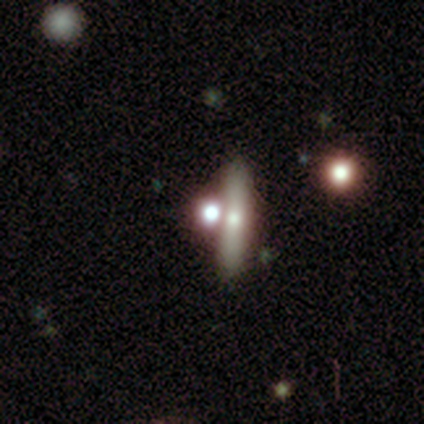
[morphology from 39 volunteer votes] Volunteers were most divided on "smooth or featured": smooth: 44%, featured or disk: 41%, star or artifact: 15%. More confident: how rounded — cigar-shaped (65%); merging — none (55%).